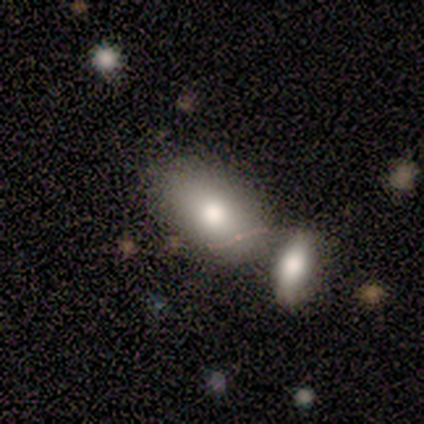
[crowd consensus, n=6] Q: Smooth or featured?
A: smooth (50%); tied with: featured or disk (50%)
Q: How rounded?
A: in between (100%)
Q: Merging?
A: minor disturbance (50%); runner-up: none (33%)